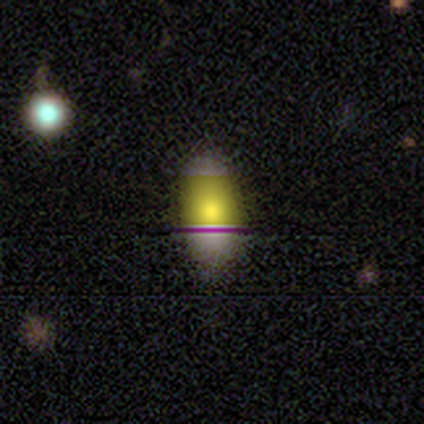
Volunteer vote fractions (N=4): Smooth or featured? 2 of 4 (50%, tied with star or artifact) said smooth. How rounded? 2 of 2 (100%) said in between. Merging? 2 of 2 (100%) said none.